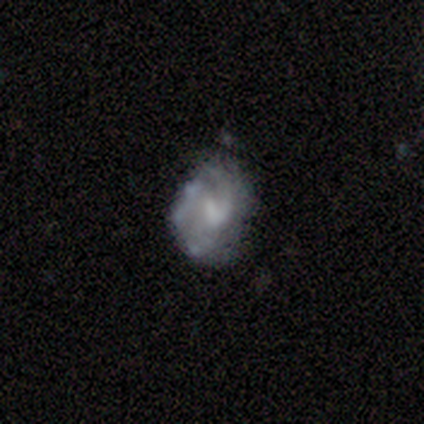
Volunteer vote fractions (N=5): This is clearly a featured or disk galaxy (100%). It is clearly not viewed edge-on (100%). Bar: clearly weak (100%). Spiral arm pattern: clearly yes (80%). Spiral arm count: likely 1 (75%). Spiral winding: possibly medium (50%). Central bulge: likely small (60%). Merging: clearly minor disturbance (80%).